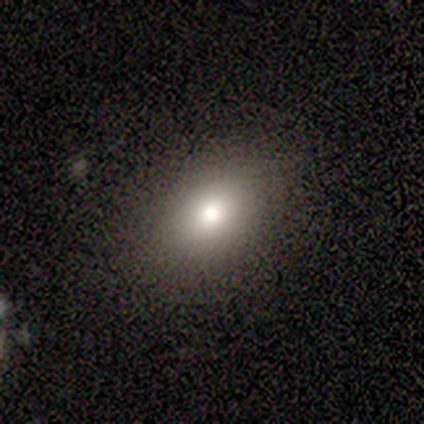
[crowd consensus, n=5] smooth 60%, featured or disk 20%, star or artifact 20%. Down the decision tree: how rounded — in between (67%); merging — none (100%).